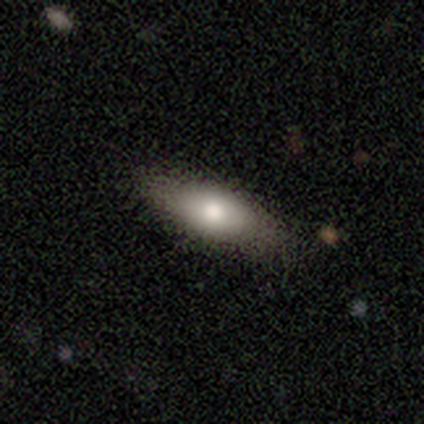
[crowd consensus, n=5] Smooth or featured?
  - smooth: 80% *
  - featured or disk: 20%
  - star or artifact: 0%
How rounded?
  - in between: 75% *
  - cigar-shaped: 25%
  - round: 0%
Merging?
  - none: 80% *
  - minor disturbance: 20%
  - major disturbance: 0%
  - merger: 0%